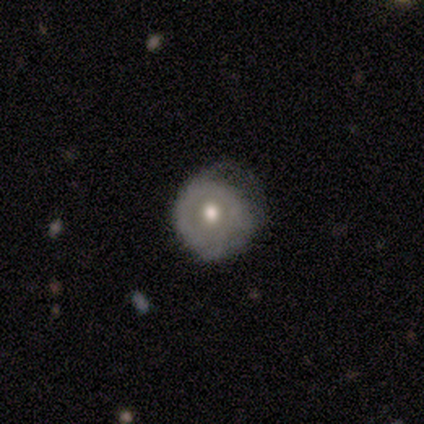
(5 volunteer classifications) Smooth or featured?
  - smooth: 60% *
  - featured or disk: 40%
  - star or artifact: 0%
How rounded?
  - round: 100% *
  - in between: 0%
  - cigar-shaped: 0%
Merging?
  - none: 40% * (tied)
  - minor disturbance: 40% * (tied)
  - major disturbance: 20%
  - merger: 0%